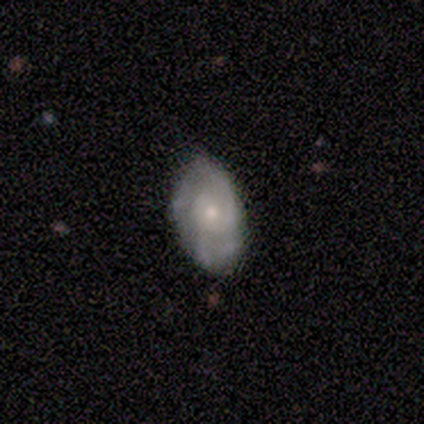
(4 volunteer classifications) Q: Smooth or featured?
A: featured or disk (75%); runner-up: smooth (25%)
Q: Edge-on disk?
A: no (100%)
Q: Bar?
A: no (100%)
Q: Spiral arms?
A: yes (67%); runner-up: no (33%)
Q: Spiral winding?
A: tight (50%); tied with: loose (50%)
Q: Spiral arm count?
A: 2 (50%); tied with: can't tell (50%)
Q: Bulge size?
A: small (67%); runner-up: moderate (33%)
Q: Merging?
A: none (75%); runner-up: minor disturbance (25%)